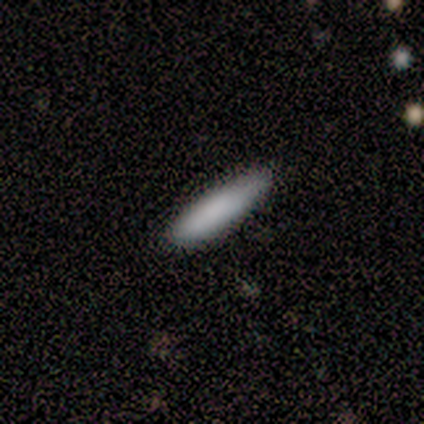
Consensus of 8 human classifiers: A smooth galaxy with no disk features (88%) that is cigar-shaped (57%).

Vote fractions:
- Smooth or featured? smooth: 88% / featured or disk: 12% / star or artifact: 0%
- How rounded? cigar-shaped: 57% / in between: 43% / round: 0%
- Merging? none: 50% / minor disturbance: 38% / merger: 12% / major disturbance: 0%